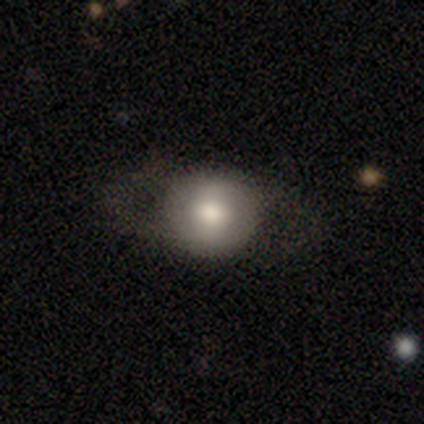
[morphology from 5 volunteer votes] Smooth or featured? featured or disk (80%)
Edge-on disk? no (100%)
Bar? weak (50%, tied with no)
Spiral arms? yes (50%, tied with no)
Spiral winding? medium (50%, tied with loose)
Spiral arm count? 1 (50%, tied with 2)
Bulge size? large (50%)
Merging? none (60%)